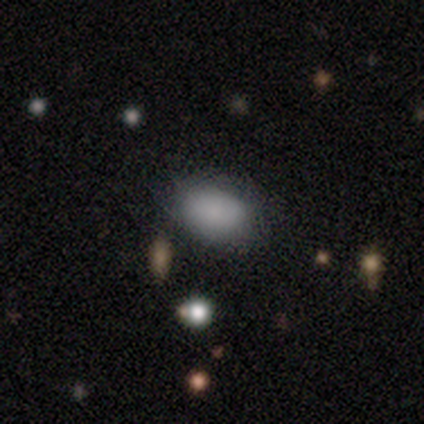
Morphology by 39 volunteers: Overall: smooth (92%). How rounded: in between (69%). Merging: none (87%).